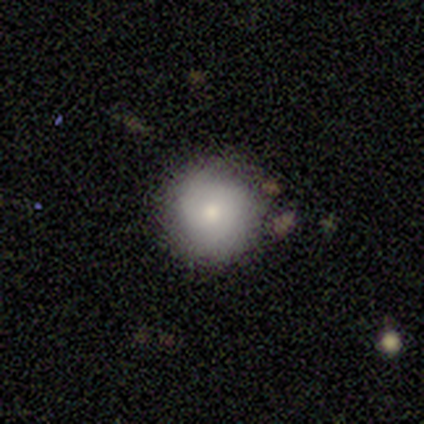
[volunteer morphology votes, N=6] Smooth or featured? smooth (67%)
How rounded? round (100%)
Merging? none (67%)